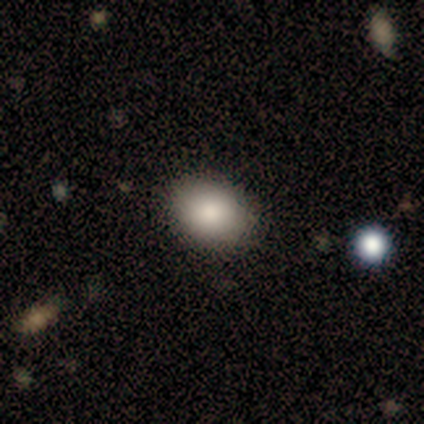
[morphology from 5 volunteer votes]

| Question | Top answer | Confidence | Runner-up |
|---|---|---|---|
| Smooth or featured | smooth | 80% | star or artifact (20%) |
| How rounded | in between | 100% | — |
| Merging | none | 100% | — |